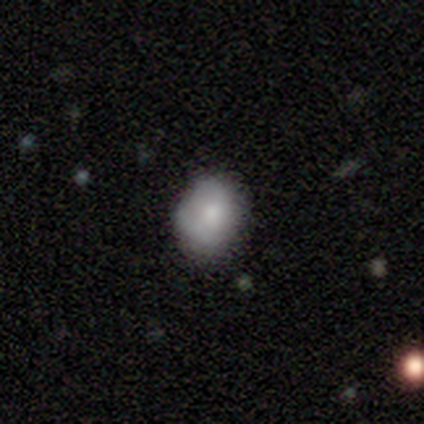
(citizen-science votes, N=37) Smooth or featured?
  - smooth: 70% *
  - featured or disk: 22%
  - star or artifact: 8%
How rounded?
  - round: 54% *
  - in between: 46%
  - cigar-shaped: 0%
Merging?
  - none: 76% *
  - minor disturbance: 15%
  - major disturbance: 9%
  - merger: 0%